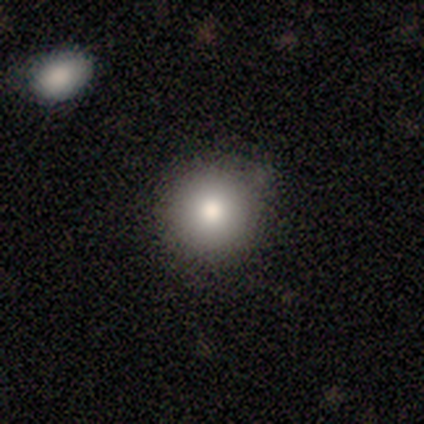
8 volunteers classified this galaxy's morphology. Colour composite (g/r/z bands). It shows a smooth galaxy with no disk features (88%) that is round (86%). Merging: none (100%).